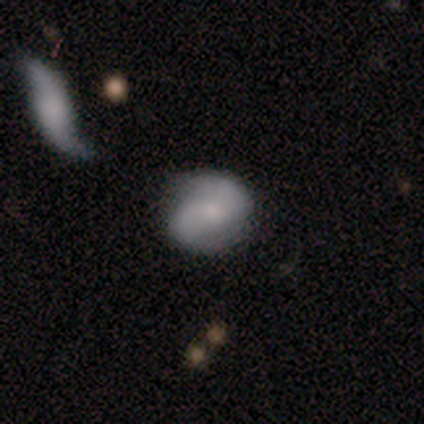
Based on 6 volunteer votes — A featured or disk galaxy (83%) with no bar (60%), 2 (100%) loose (75%) spiral arms (80%) and a moderate central bulge (60%). Merging: none (83%).